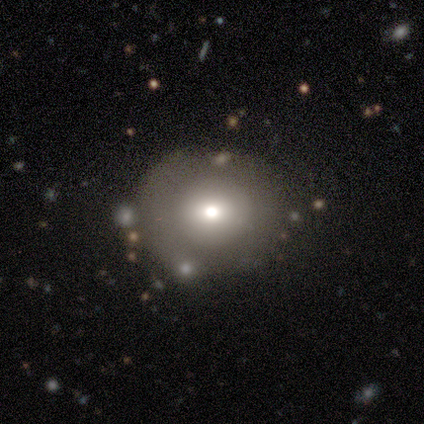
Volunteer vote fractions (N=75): smooth_or_featured: smooth (p=0.64) [alt: star or artifact p=0.23]
how_rounded: round (p=0.81) [alt: in between p=0.17]
merging: none (p=0.41) [alt: minor disturbance p=0.09]